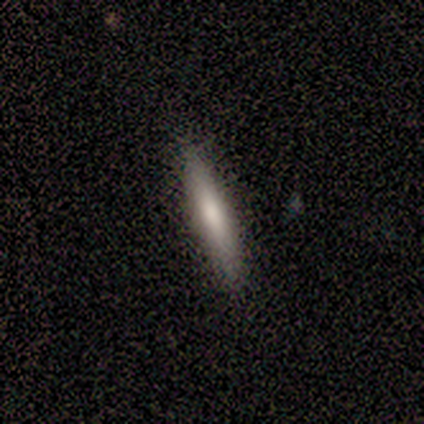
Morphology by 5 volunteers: Q: Smooth or featured?
A: smooth (60%); runner-up: featured or disk (40%)
Q: How rounded?
A: cigar-shaped (100%)
Q: Merging?
A: none (80%); runner-up: minor disturbance (20%)